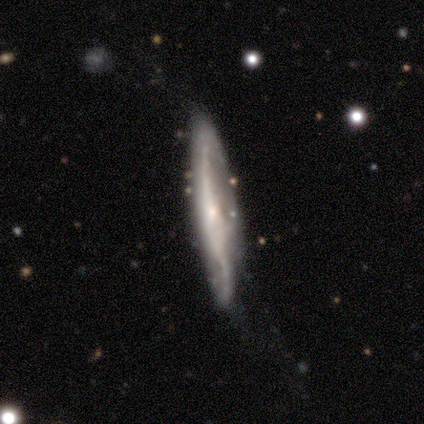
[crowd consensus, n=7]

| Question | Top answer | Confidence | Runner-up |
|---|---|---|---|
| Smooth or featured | featured or disk | 100% | — |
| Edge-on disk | yes | 71% | no (29%) |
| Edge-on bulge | rounded | 60% | none (40%) |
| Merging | minor disturbance | 43% | none (29%) |